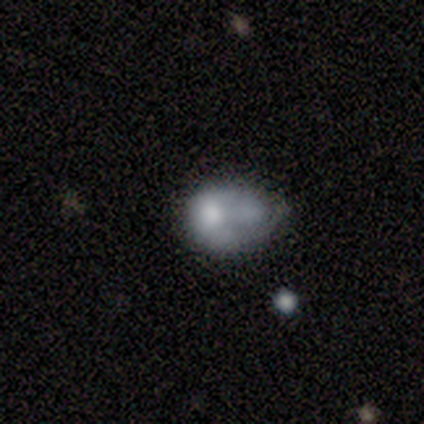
smooth-or-featured: smooth: 60% | featured or disk: 20% | star or artifact: 20%
  how-rounded: in between: 100% | round: 0% | cigar-shaped: 0%
  merging: minor disturbance: 50% | none: 25% | major disturbance: 25% | merger: 0%